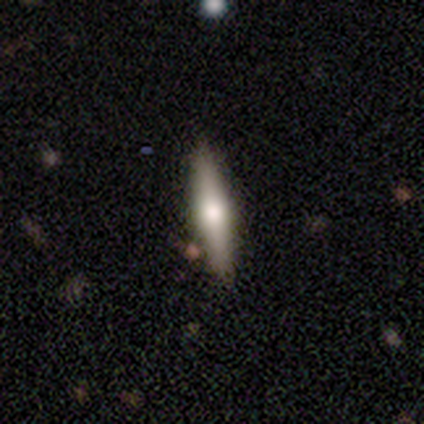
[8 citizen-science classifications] Smooth or featured? 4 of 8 (50%, tied with featured or disk) said smooth. How rounded? 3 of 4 (75%) said cigar-shaped. Merging? 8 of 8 (100%) said none.